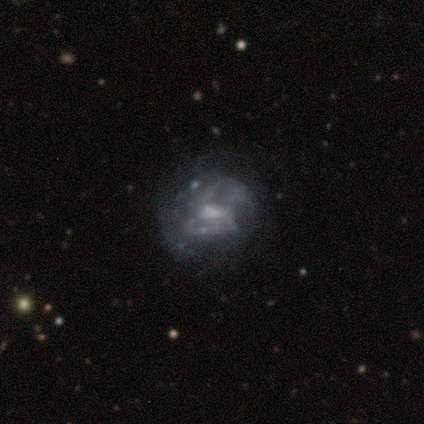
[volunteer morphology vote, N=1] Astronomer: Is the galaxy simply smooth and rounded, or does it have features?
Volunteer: featured or disk — 100%.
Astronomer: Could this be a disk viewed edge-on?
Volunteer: no — 100%.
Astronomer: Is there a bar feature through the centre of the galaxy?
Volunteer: weak — 100%.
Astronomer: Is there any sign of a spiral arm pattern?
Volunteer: no — 100%.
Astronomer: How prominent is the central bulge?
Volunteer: moderate — 100%.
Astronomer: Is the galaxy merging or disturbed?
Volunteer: major disturbance — 100%.